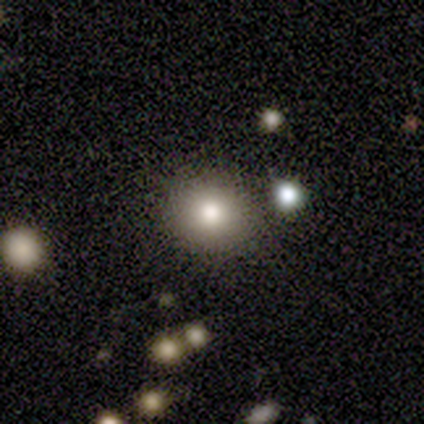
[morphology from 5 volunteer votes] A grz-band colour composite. It shows a smooth galaxy with no disk features (60%) that is round (67%). Merging: none (75%).